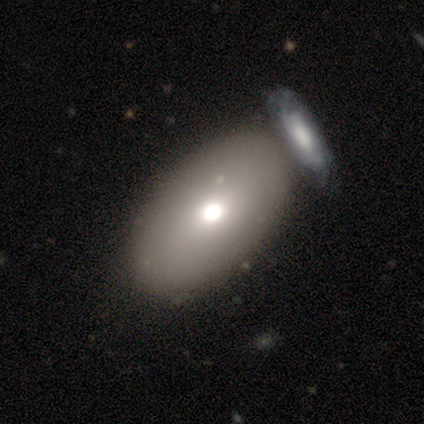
smooth 67%, featured or disk 22%, star or artifact 11%. Down the decision tree: how rounded — in between (67%); merging — merger (50%).